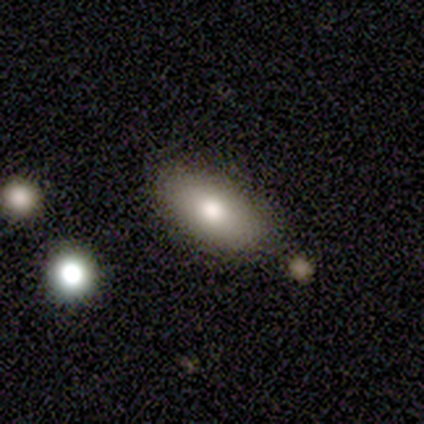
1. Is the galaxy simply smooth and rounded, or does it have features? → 75% smooth, 25% featured or disk, 0% star or artifact.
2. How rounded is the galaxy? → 100% in between, 0% round, 0% cigar-shaped.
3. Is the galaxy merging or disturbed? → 100% none, 0% minor disturbance, 0% major disturbance, 0% merger.